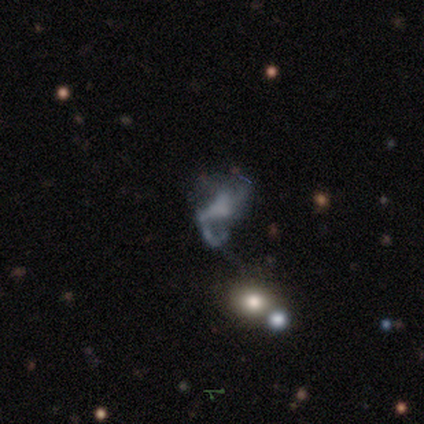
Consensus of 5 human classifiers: smooth_or_featured: featured or disk (p=0.60) [alt: smooth p=0.20]
disk_edge_on: no (p=0.67) [alt: yes p=0.33]
bar: strong (p=0.50) [tied with: no p=0.50]
has_spiral_arms: yes (p=0.50) [tied with: no p=0.50]
spiral_winding: medium (p=1.00)
spiral_arm_count: 1 (p=1.00)
bulge_size: moderate (p=0.50) [tied with: none p=0.50]
merging: major disturbance (p=0.50) [alt: minor disturbance p=0.25]